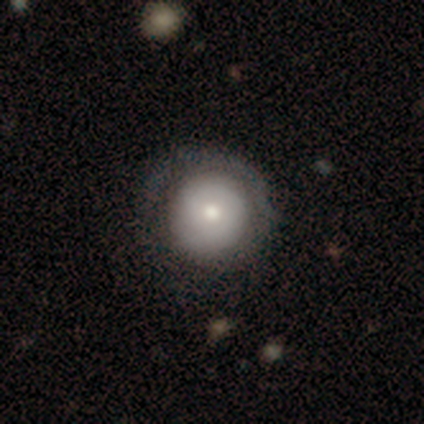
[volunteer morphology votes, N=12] Smooth or featured? 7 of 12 (58%) said smooth. How rounded? 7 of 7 (100%) said round. Merging? 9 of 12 (75%) said none.